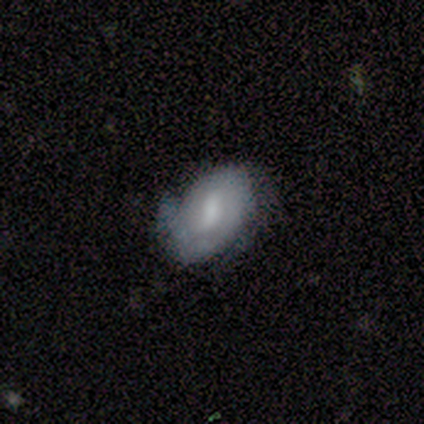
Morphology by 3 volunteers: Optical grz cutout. It shows a smooth galaxy with no disk features (67%) that is in between round and cigar-shaped (100%). Merging: minor disturbance (67%).